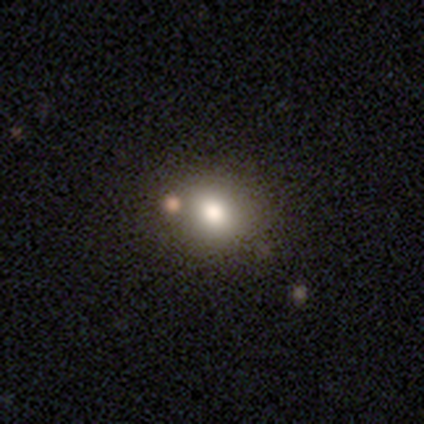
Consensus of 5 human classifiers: Smooth or featured? smooth (100%)
How rounded? round (80%)
Merging? none (60%)